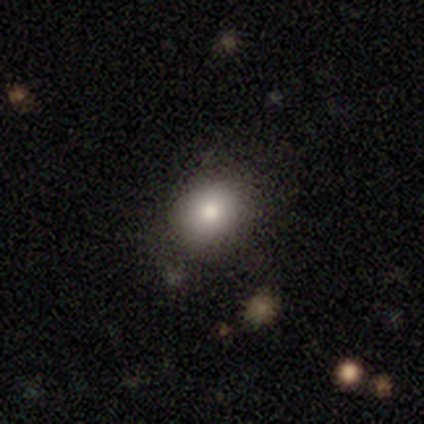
Q: Smooth or featured?
A: smooth (75%); runner-up: star or artifact (25%)
Q: How rounded?
A: in between (67%); runner-up: round (33%)
Q: Merging?
A: none (100%)